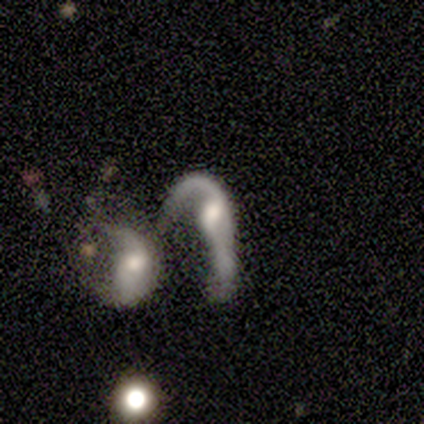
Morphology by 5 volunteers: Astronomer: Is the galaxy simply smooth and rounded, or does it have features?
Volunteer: featured or disk — 100%.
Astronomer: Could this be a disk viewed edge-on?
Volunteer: no — 100%.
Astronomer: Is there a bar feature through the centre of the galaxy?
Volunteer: weak — 60% (runner-up: no, 40%).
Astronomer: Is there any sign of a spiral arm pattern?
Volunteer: yes — 100%.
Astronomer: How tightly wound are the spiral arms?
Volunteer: loose — 100%.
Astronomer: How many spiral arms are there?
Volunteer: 2 — 100%.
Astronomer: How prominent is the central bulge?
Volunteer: moderate — 100%.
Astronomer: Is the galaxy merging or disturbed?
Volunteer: merger — 80%.